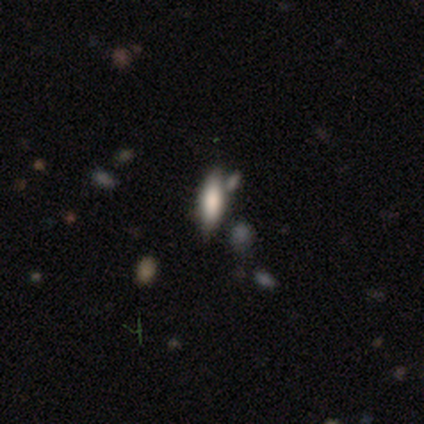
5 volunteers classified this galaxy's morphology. type=smooth (60%); roundness=in between (67%); merging=none (50%).